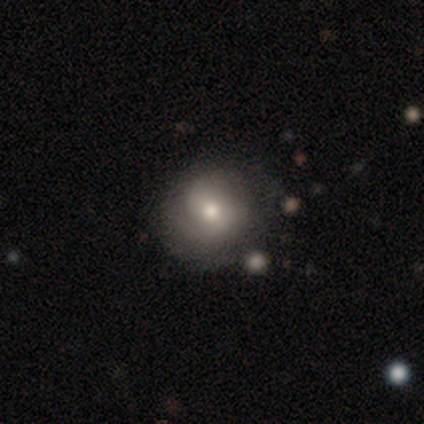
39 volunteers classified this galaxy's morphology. smooth-or-featured: smooth: 54% | featured or disk: 33% | star or artifact: 13%
  how-rounded: round: 86% | in between: 14% | cigar-shaped: 0%
  merging: none: 79% | minor disturbance: 12% | major disturbance: 6% | merger: 3%